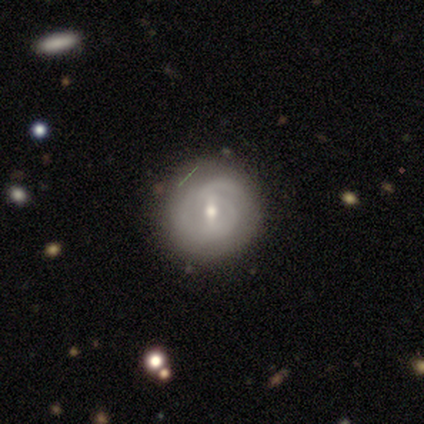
A featured or disk galaxy (78%) with a weak bar (73%), medium (46%) spiral arms (87%) and a moderate central bulge (67%).

Vote fractions:
- Smooth or featured? featured or disk: 78% / smooth: 12% / star or artifact: 10%
- Edge-on disk? no: 97% / yes: 3%
- Bar? weak: 73% / strong: 17% / no: 10%
- Spiral arms? yes: 87% / no: 13%
- Spiral winding? medium: 46% / tight: 42% / loose: 12%
- Spiral arm count? can't tell: 50% / 2: 27% / 1: 12% / 3: 12% / 4: 0% / more than 4: 0%
- Bulge size? moderate: 67% / small: 30% / dominant: 3% / large: 0% / none: 0%
- Merging? none: 75% / major disturbance: 14% / minor disturbance: 11% / merger: 0%